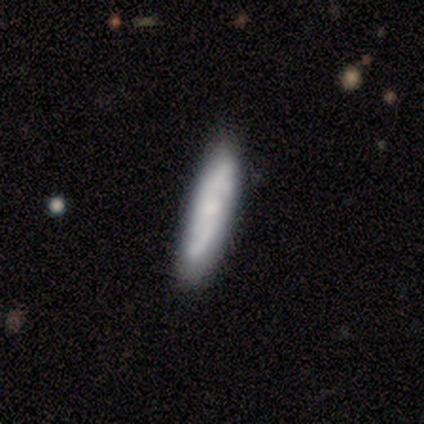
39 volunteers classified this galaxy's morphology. Smooth or featured: smooth — 64% (featured or disk — 31%)
How rounded: cigar-shaped — 80% (in between — 20%)
Merging: none — 70% (minor disturbance — 27%)